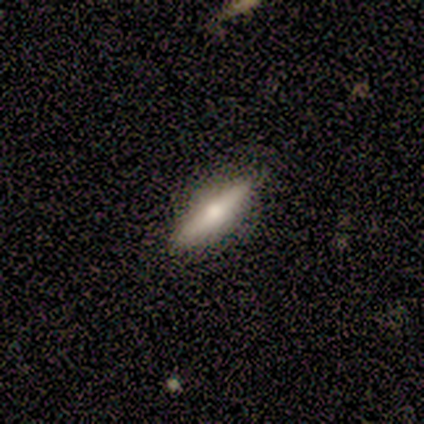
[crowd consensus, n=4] Smooth or featured? featured or disk (100%)
Edge-on disk? yes (100%)
Edge-on bulge? rounded (100%)
Merging? none (100%)